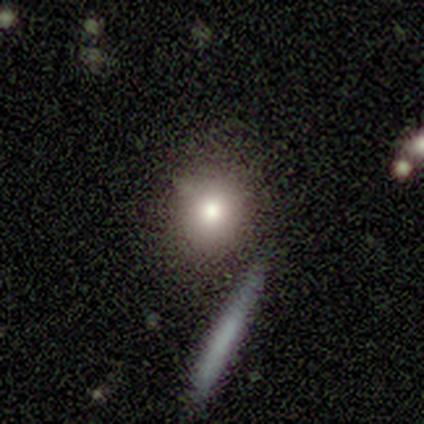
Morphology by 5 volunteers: Volunteers were most divided on "merging": none: 60%, minor disturbance: 20%, merger: 20%, major disturbance: 0%. More confident: smooth or featured — smooth (80%); how rounded — round (75%).